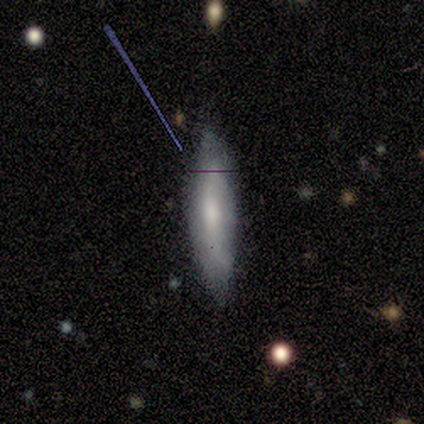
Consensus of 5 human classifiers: A smooth galaxy with no disk features (60%) that is cigar-shaped (67%).

Vote fractions:
- Smooth or featured? smooth: 60% / featured or disk: 20% / star or artifact: 20%
- How rounded? cigar-shaped: 67% / in between: 33% / round: 0%
- Merging? none: 75% / minor disturbance: 25% / major disturbance: 0% / merger: 0%